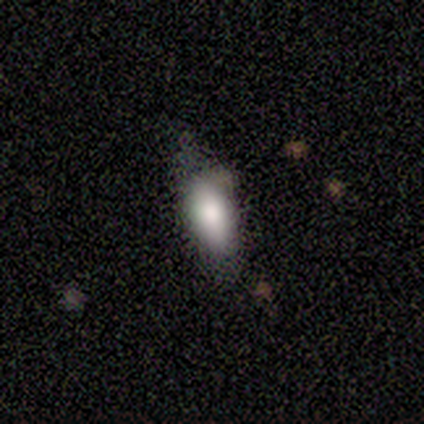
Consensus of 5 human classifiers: This appears to be a smooth galaxy with no disk features (100%) that is in between round and cigar-shaped (100%). Merging: none (80%).